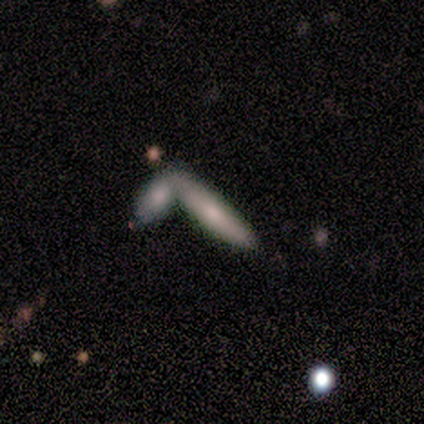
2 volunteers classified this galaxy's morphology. Q: Smooth or featured?
A: smooth (100%)
Q: How rounded?
A: in between (50%); tied with: cigar-shaped (50%)
Q: Merging?
A: none (100%)